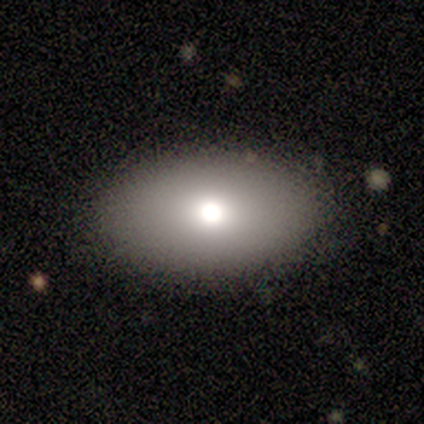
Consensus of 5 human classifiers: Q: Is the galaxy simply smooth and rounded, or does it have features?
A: smooth — 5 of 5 (100%).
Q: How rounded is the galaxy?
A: in between — 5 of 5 (100%).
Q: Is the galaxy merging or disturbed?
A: none — 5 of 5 (100%).